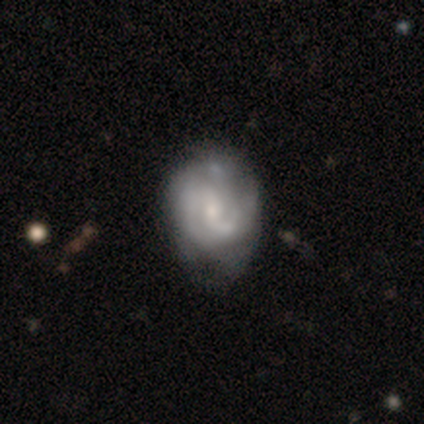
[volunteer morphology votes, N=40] smooth_or_featured: featured or disk (p=0.82) [alt: smooth p=0.15]
disk_edge_on: no (p=0.97) [alt: yes p=0.03]
bar: no (p=0.59) [alt: weak p=0.38]
has_spiral_arms: yes (p=0.75) [alt: no p=0.25]
spiral_winding: medium (p=0.67) [alt: tight p=0.21]
spiral_arm_count: 2 (p=0.67) [alt: can't tell p=0.21]
bulge_size: small (p=0.53) [alt: moderate p=0.31]
merging: minor disturbance (p=0.33) [alt: none p=0.31]